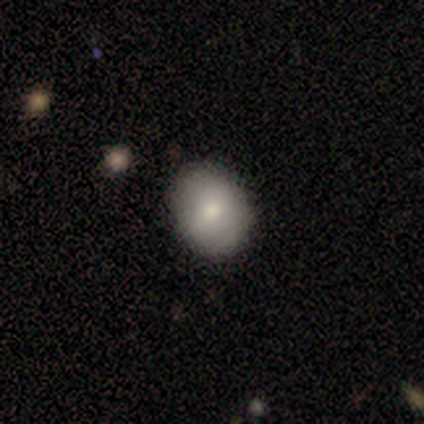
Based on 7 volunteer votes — smooth-or-featured: smooth: 71% | featured or disk: 14% | star or artifact: 14%
  how-rounded: round: 80% | in between: 20% | cigar-shaped: 0%
  merging: none: 83% | minor disturbance: 17% | major disturbance: 0% | merger: 0%